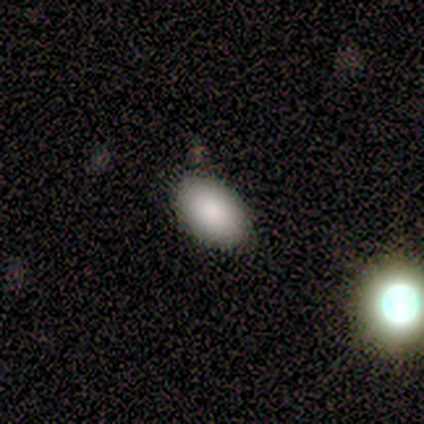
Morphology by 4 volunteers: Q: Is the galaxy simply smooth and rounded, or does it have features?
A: smooth — 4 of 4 (100%).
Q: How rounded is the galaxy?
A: in between — 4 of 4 (100%).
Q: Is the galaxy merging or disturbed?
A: none — 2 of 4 (50%, tied with minor disturbance).